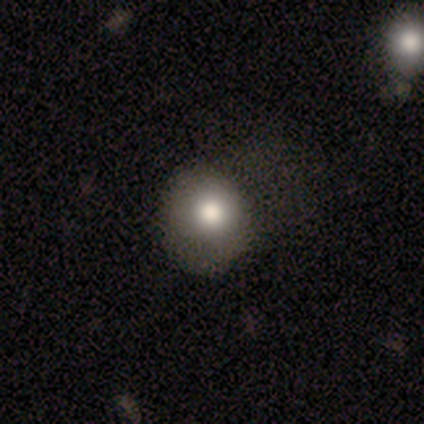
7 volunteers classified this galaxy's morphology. Smooth or featured: smooth — 57% (star or artifact — 29%)
How rounded: round — 50% (tied with in between — 50%)
Merging: minor disturbance — 40% (tied with major disturbance — 40%)